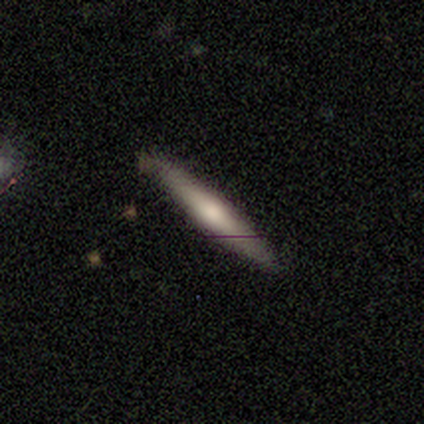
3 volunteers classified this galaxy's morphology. featured or disk 67%, smooth 33%, star or artifact 0%. Down the decision tree: edge-on disk — yes (100%); edge-on bulge — none (50%, tied with rounded); merging — none (33%, tied with minor disturbance and major disturbance).